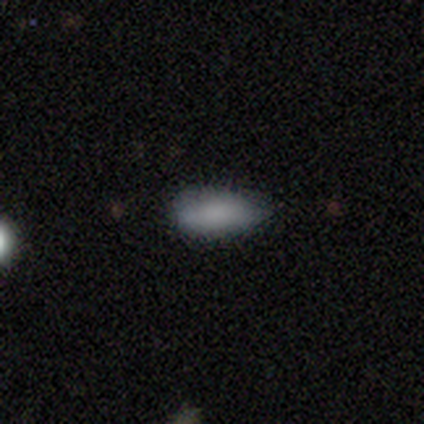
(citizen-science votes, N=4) A smooth galaxy with no disk features (100%) that is in between round and cigar-shaped (75%).

Vote fractions:
- Smooth or featured? smooth: 100% / featured or disk: 0% / star or artifact: 0%
- How rounded? in between: 75% / cigar-shaped: 25% / round: 0%
- Merging? none: 75% / minor disturbance: 25% / major disturbance: 0% / merger: 0%